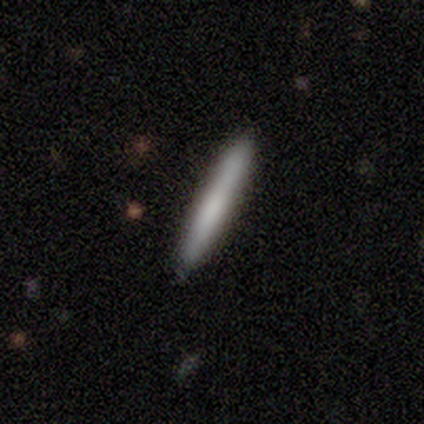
A smooth galaxy with no disk features (100%) that is cigar-shaped (100%). Merging: none (60%).